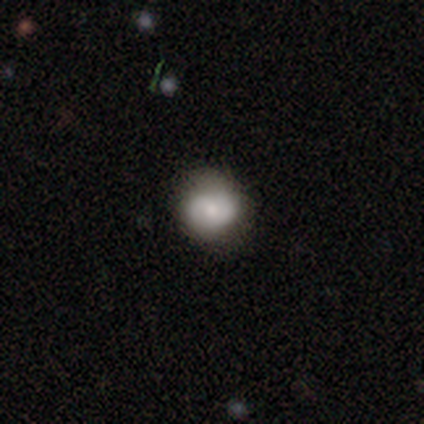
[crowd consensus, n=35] This is likely a smooth galaxy (60%). How rounded: likely round (71%). Merging: clearly none (81%).